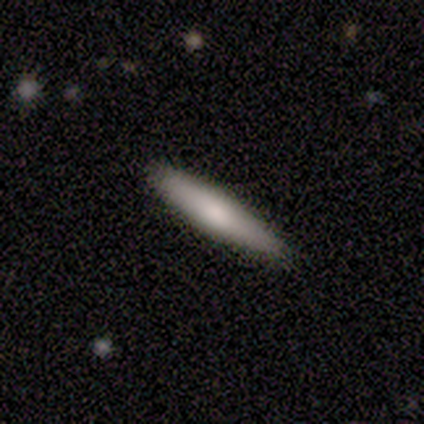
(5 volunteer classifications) This appears to be a smooth galaxy with no disk features (80%) that is cigar-shaped (75%). Merging: none (100%).